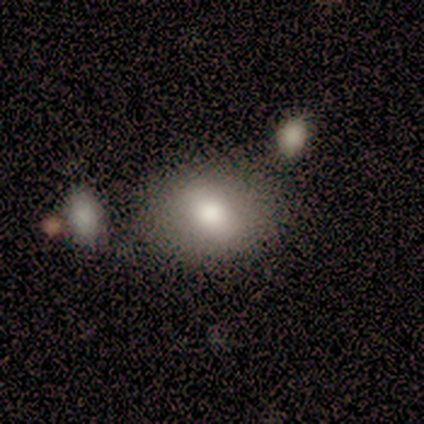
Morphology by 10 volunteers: A smooth galaxy with no disk features (50%, tied with featured or disk) that is in between round and cigar-shaped (60%). Merging: none (70%).